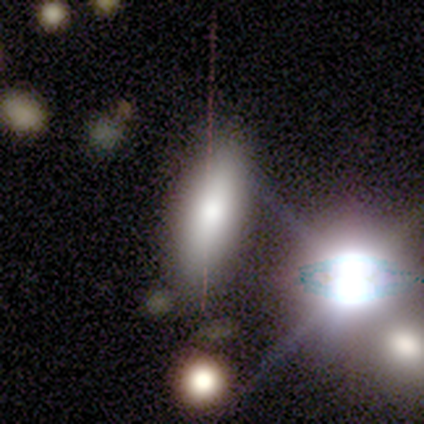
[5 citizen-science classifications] Smooth or featured?
  - smooth: 40% * (tied)
  - featured or disk: 40% * (tied)
  - star or artifact: 20%
How rounded?
  - in between: 100% *
  - round: 0%
  - cigar-shaped: 0%
Merging?
  - none: 100% *
  - minor disturbance: 0%
  - major disturbance: 0%
  - merger: 0%